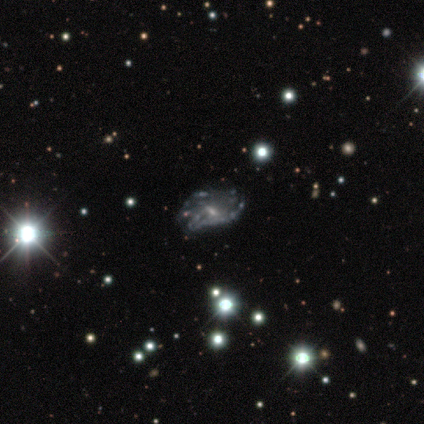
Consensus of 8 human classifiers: Overall: featured or disk (75%). Edge-on disk: no (100%). Bar: weak (67%; no 33%). Spiral arms: no (67%; yes 33%). Bulge size: small (67%; none 33%). Merging: minor disturbance (50%; none 25%).